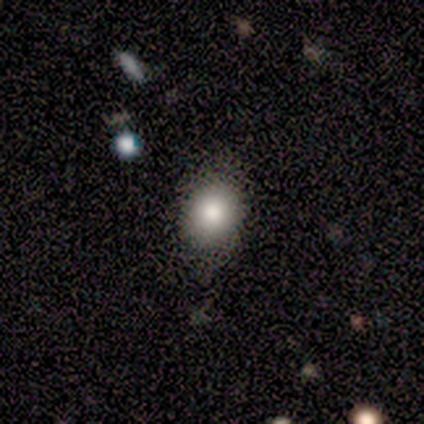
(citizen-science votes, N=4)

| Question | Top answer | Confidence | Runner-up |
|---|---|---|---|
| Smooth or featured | smooth | 100% | — |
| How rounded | round | 50% | tied: in between (50%) |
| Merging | none | 75% | minor disturbance (25%) |